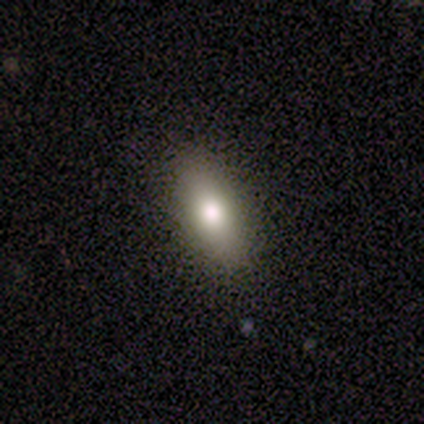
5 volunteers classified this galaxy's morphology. Smooth or featured? smooth (80%)
How rounded? in between (75%)
Merging? none (100%)